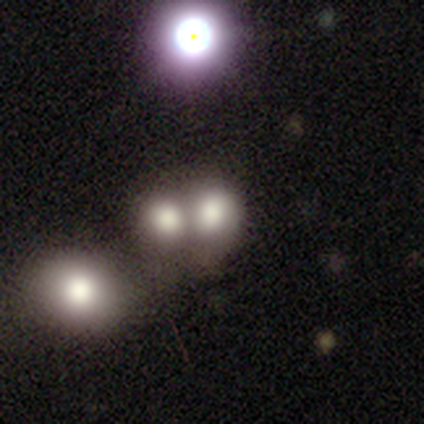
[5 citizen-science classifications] Overall: smooth (60%; star or artifact 40%). How rounded: round (67%; in between 33%). Merging: none (67%; merger 33%).